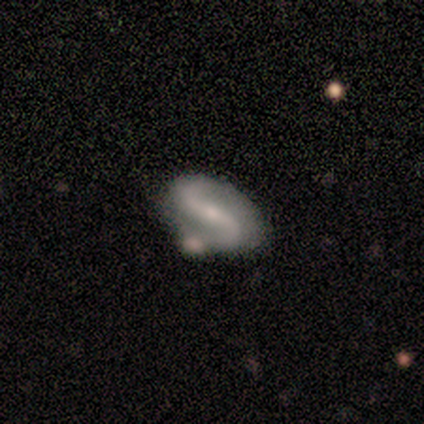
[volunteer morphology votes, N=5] featured or disk 80%, star or artifact 20%, smooth 0%. Down the decision tree: edge-on disk — no (100%); bar — strong (75%); spiral arms — yes (75%); spiral arm count — 2 (100%); spiral winding — loose (67%); bulge size — moderate (75%); merging — minor disturbance (50%).